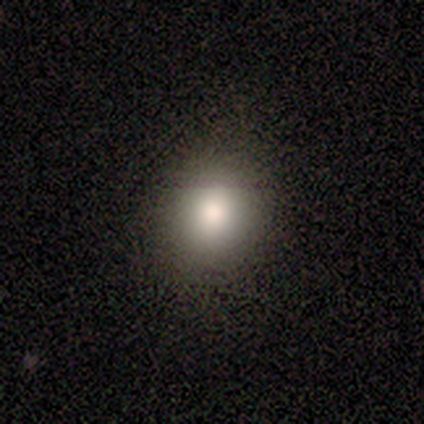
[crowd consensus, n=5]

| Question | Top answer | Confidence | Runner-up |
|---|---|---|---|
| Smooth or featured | smooth | 100% | — |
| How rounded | round | 60% | in between (40%) |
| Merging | none | 80% | minor disturbance (20%) |